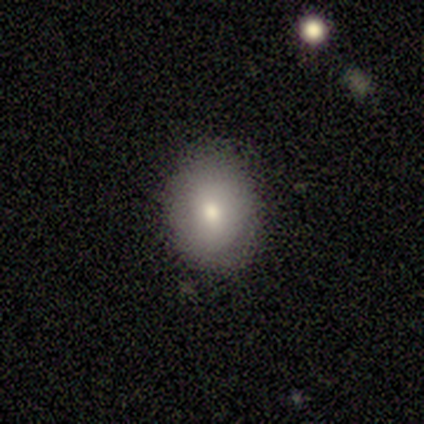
Overall: smooth (82%). How rounded: in between (55%; round 45%). Merging: none (94%).